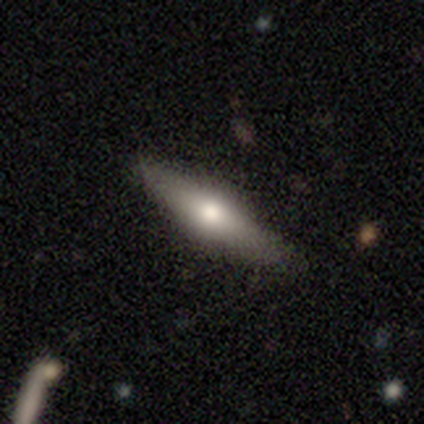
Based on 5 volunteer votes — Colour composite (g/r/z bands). It shows a smooth galaxy with no disk features (80%) that is cigar-shaped (75%). Merging: none (80%).